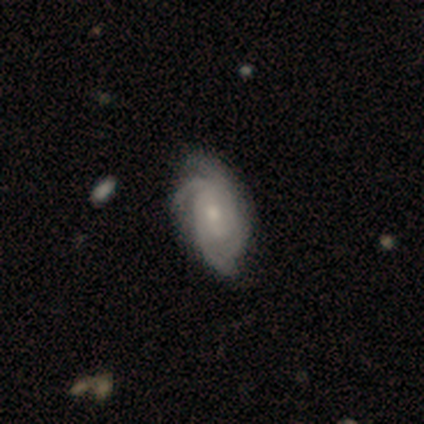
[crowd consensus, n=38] featured or disk 84%, smooth 13%, star or artifact 3%. Down the decision tree: edge-on disk — no (97%); bar — no (71%); spiral arms — yes (97%); spiral arm count — 3 (40%); spiral winding — tight (73%); bulge size — moderate (48%); merging — none (59%).